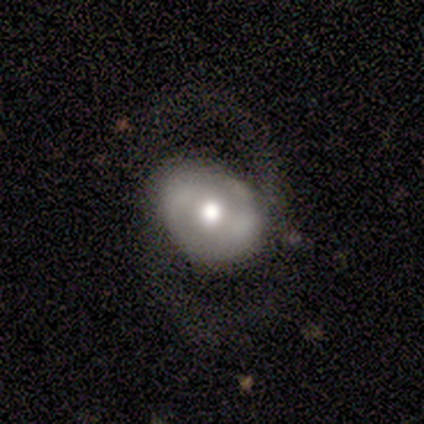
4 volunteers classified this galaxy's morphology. Smooth or featured: featured or disk — 100%
Edge-on disk: no — 100%
Bar: strong — 50% (tied with weak — 50%)
Spiral arms: yes — 75% (no — 25%)
Spiral winding: tight — 33% (tied with medium — 33%; loose — 33%)
Spiral arm count: 2 — 67% (can't tell — 33%)
Bulge size: moderate — 100%
Merging: none — 50% (tied with major disturbance — 50%)